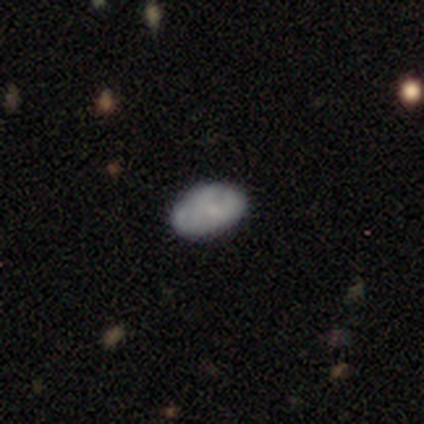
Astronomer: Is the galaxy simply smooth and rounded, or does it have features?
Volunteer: smooth — 40%, tied with featured or disk at 40%.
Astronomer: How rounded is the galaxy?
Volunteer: in between — 100%.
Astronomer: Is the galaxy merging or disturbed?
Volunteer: minor disturbance — 75%.